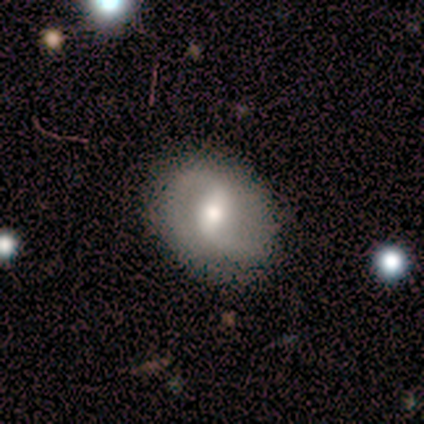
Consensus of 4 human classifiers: Volunteers were most divided on "spiral winding" (2-way tie): tight: 50%, loose: 50%, medium: 0%; "bulge size" (2-way tie): moderate: 50%, small: 50%, dominant: 0%, large: 0%, none: 0%. More confident: edge-on disk — no (100%); bar — weak (100%); spiral arms — yes (100%); spiral arm count — 2 (100%); merging — none (100%); smooth or featured — featured or disk (50%).